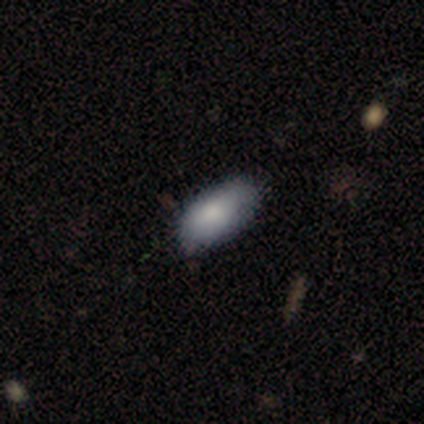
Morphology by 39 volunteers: A smooth galaxy with no disk features (77%) that is in between round and cigar-shaped (97%). Merging: none (75%).